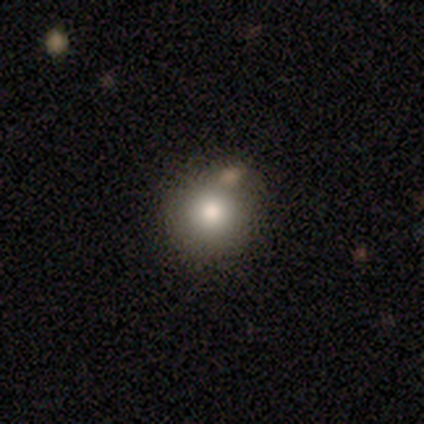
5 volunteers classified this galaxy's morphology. This appears to be a smooth galaxy with no disk features (80%) that is round (75%). Merging: minor disturbance (50%).